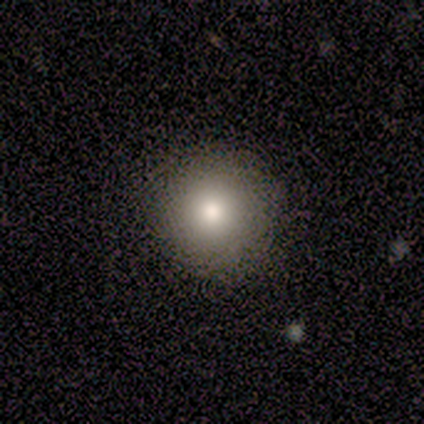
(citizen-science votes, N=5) smooth_or_featured: smooth (p=1.00)
how_rounded: round (p=1.00)
merging: none (p=1.00)